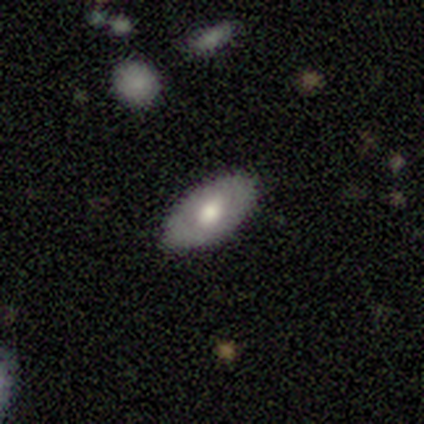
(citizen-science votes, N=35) smooth-or-featured: featured or disk: 49% | smooth: 43% | star or artifact: 9%
  disk-edge-on: no: 65% | yes: 35%
    bar: no: 82% | weak: 18% | strong: 0%
    has-spiral-arms: no: 82% | yes: 18%
    bulge-size: moderate: 91% | large: 9% | dominant: 0% | small: 0% | none: 0%
  merging: none: 81% | minor disturbance: 12% | major disturbance: 6% | merger: 0%